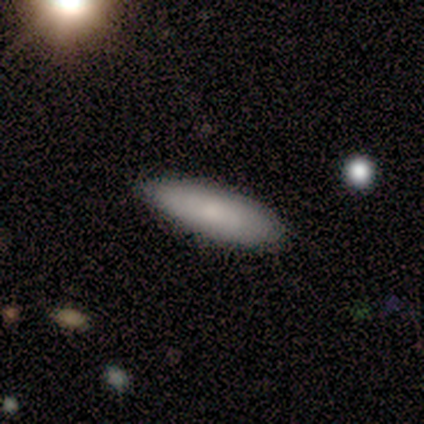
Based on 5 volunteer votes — This appears to be a smooth galaxy with no disk features (80%) that is cigar-shaped (75%). Merging: none (80%).